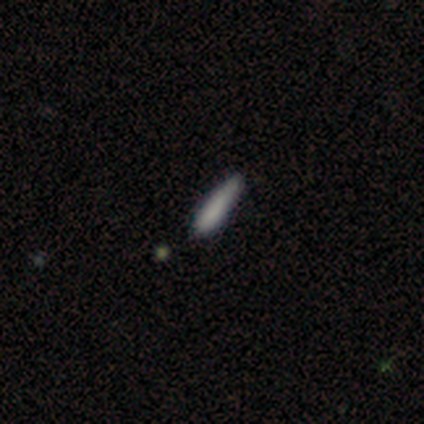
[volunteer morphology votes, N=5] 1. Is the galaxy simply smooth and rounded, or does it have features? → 100% smooth, 0% featured or disk, 0% star or artifact.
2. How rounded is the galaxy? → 100% cigar-shaped, 0% round, 0% in between.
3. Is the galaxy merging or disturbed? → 60% minor disturbance, 40% none, 0% major disturbance, 0% merger.